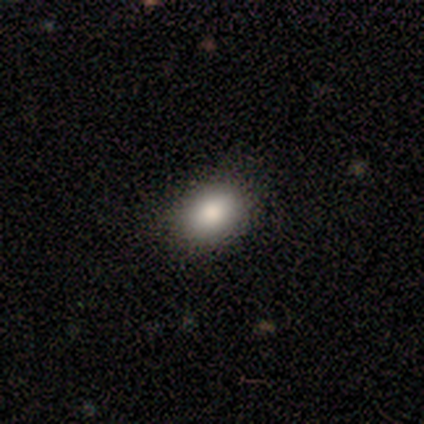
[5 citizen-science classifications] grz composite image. It shows a smooth galaxy with no disk features (100%) that is in between round and cigar-shaped (80%). Merging: none (80%).